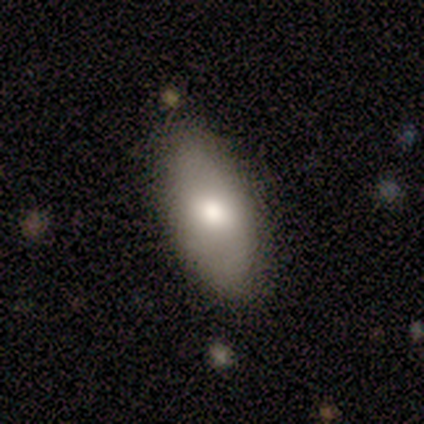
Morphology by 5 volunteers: This is likely a smooth galaxy (60%). How rounded: clearly in between (100%). Merging: clearly none (80%).